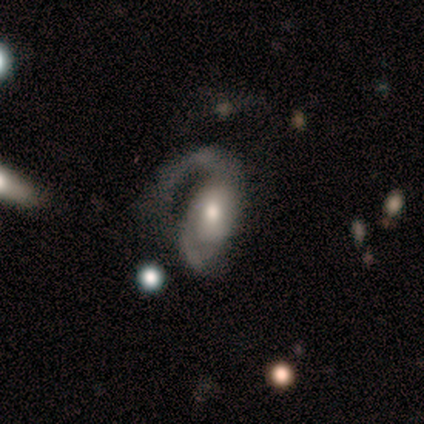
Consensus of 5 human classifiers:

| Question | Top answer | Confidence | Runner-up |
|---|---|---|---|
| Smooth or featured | featured or disk | 60% | smooth (40%) |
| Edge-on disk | no | 100% | — |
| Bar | no | 67% | weak (33%) |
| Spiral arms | yes | 100% | — |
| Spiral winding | medium | 67% | tight (33%) |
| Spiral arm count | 1 | 33% | tied: 2 (33%), can't tell (33%) |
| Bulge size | small | 67% | large (33%) |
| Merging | merger | 40% | none (20%) |